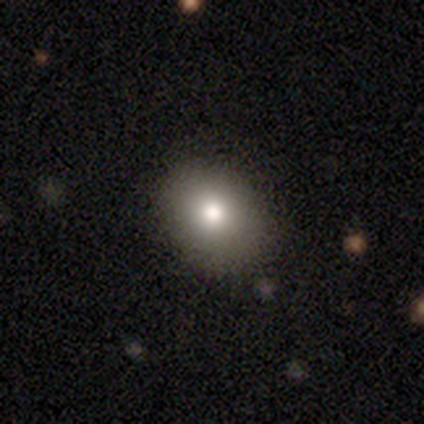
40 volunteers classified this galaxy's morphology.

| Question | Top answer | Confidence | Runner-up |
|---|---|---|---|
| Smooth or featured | smooth | 85% | featured or disk (8%) |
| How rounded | round | 53% | in between (47%) |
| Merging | none | 86% | minor disturbance (14%) |